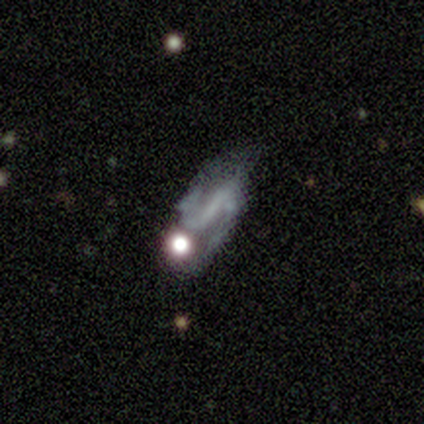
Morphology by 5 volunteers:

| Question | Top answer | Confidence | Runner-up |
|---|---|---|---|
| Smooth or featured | featured or disk | 60% | smooth (20%) |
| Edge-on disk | no | 100% | — |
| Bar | strong | 33% | tied: weak (33%), no (33%) |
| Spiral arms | yes | 100% | — |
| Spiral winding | medium | 67% | loose (33%) |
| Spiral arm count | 2 | 100% | — |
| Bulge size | none | 67% | small (33%) |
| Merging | none | 50% | tied: minor disturbance (50%) |